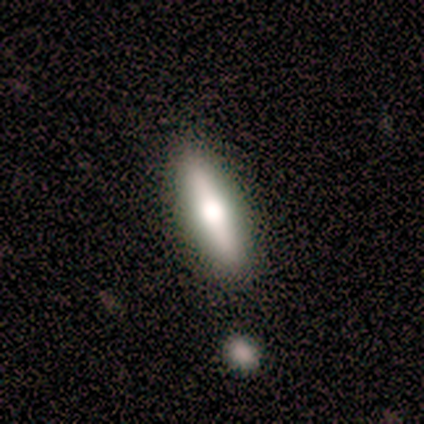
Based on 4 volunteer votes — Morphology: type=smooth (75%); roundness=cigar-shaped (100%); merging=none (100%).